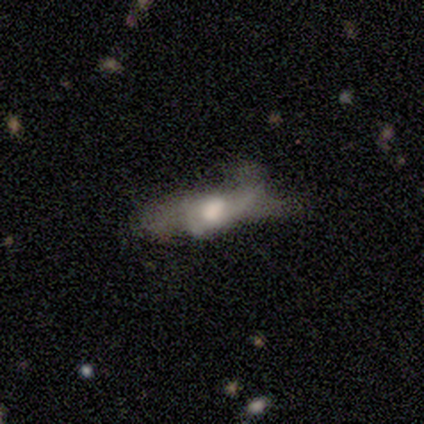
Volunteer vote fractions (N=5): Q: Smooth or featured?
A: smooth (40%); tied with: featured or disk (40%)
Q: How rounded?
A: in between (100%)
Q: Merging?
A: major disturbance (50%); runner-up: none (25%)